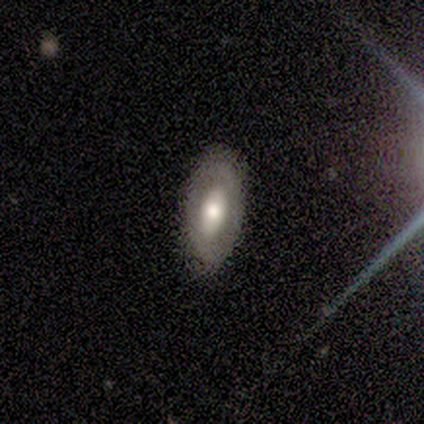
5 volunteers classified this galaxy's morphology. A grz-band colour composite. It shows a smooth galaxy with no disk features (40%, tied with featured or disk) that is round (50%, tied with in between). Merging: none (75%).